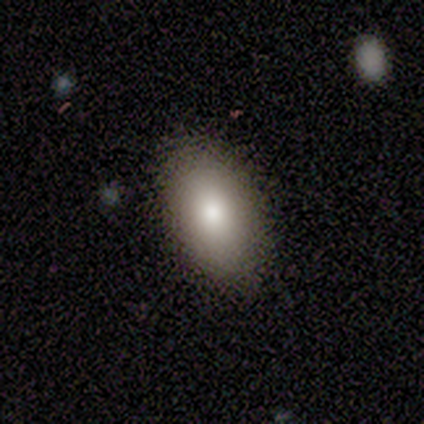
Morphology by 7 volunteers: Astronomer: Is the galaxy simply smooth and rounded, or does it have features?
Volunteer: smooth — 100%.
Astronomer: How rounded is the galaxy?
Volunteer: in between — 100%.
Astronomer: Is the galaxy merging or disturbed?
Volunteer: none — 100%.